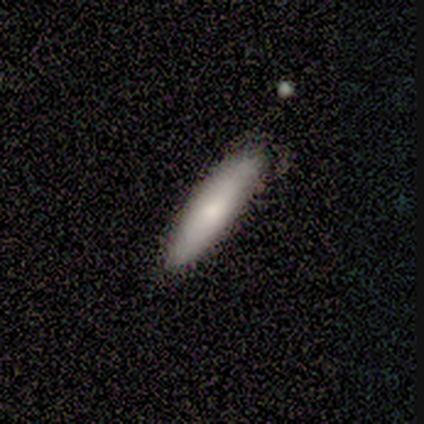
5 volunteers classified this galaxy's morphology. Smooth or featured: featured or disk — 60% (smooth — 40%)
Edge-on disk: yes — 67% (no — 33%)
Edge-on bulge: none — 50% (tied with rounded — 50%)
Merging: none — 80% (minor disturbance — 20%)